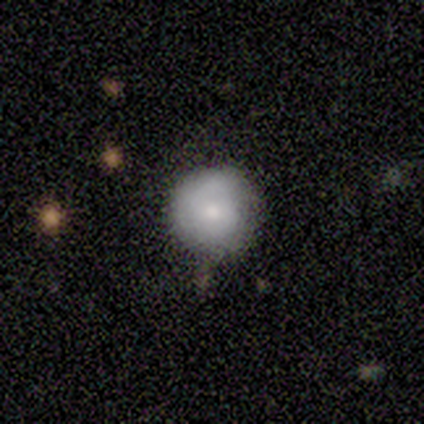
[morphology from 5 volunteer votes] Q: Smooth or featured?
A: smooth (100%)
Q: How rounded?
A: round (80%); runner-up: in between (20%)
Q: Merging?
A: none (100%)